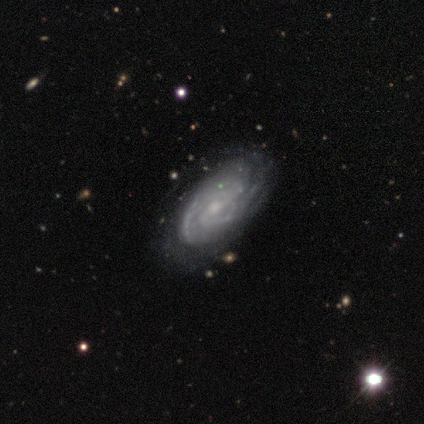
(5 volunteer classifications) A featured or disk galaxy (80%) with a weak bar (75%), 3 (50%) tight (75%) spiral arms (100%) and a moderate central bulge (50%, tied with small). Merging: none (100%).